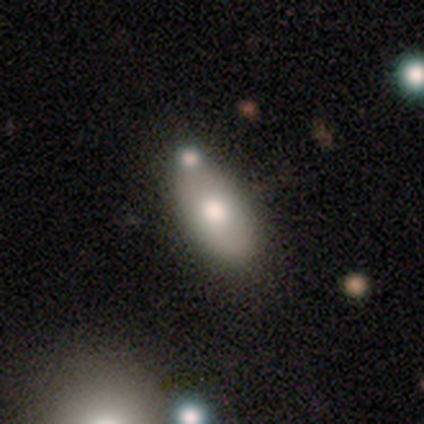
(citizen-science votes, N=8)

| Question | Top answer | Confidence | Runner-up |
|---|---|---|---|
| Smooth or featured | smooth | 88% | featured or disk (12%) |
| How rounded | in between | 86% | round (14%) |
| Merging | none | 50% | minor disturbance (25%) |